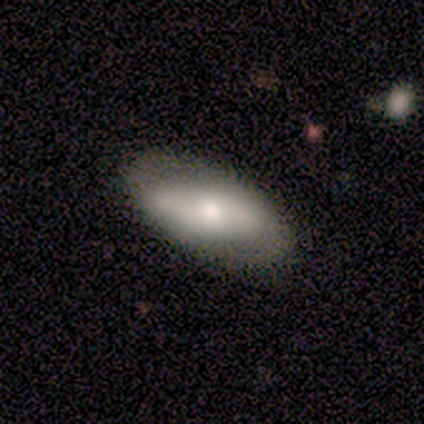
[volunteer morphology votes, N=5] smooth 80%, featured or disk 20%, star or artifact 0%. Down the decision tree: how rounded — in between (100%); merging — none (60%).